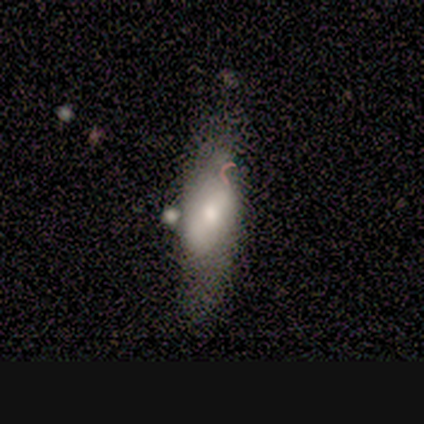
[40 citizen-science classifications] Smooth or featured: smooth — 45% (featured or disk — 38%)
How rounded: in between — 72% (cigar-shaped — 28%)
Merging: none — 36% (minor disturbance — 33%)